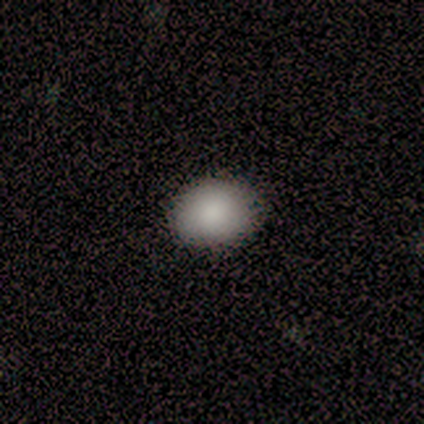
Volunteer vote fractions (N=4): Q: Smooth or featured?
A: smooth (100%)
Q: How rounded?
A: round (50%); tied with: in between (50%)
Q: Merging?
A: none (75%); runner-up: minor disturbance (25%)